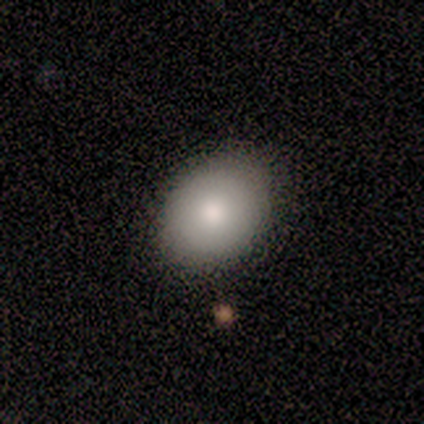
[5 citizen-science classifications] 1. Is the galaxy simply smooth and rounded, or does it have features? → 60% smooth, 40% featured or disk, 0% star or artifact.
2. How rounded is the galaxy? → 67% in between, 33% round, 0% cigar-shaped.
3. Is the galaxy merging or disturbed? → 100% none, 0% minor disturbance, 0% major disturbance, 0% merger.